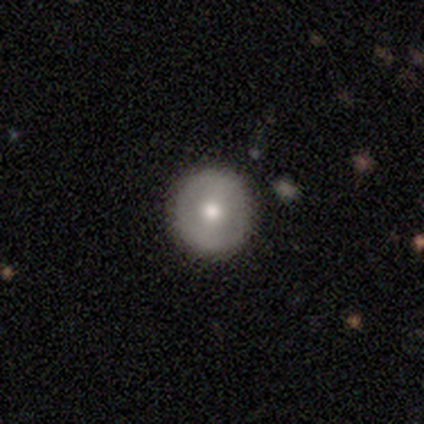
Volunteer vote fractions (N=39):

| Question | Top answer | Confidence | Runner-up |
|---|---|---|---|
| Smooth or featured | smooth | 62% | featured or disk (36%) |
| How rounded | round | 96% | in between (4%) |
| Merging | none | 74% | minor disturbance (5%) |